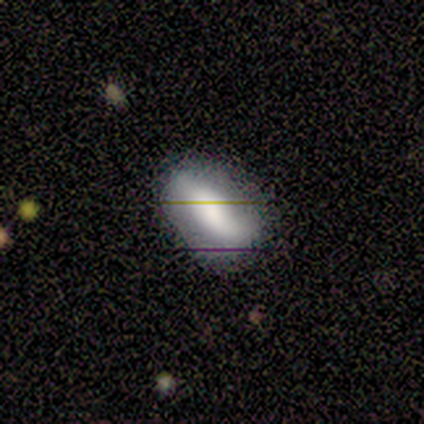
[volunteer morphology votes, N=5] A smooth galaxy with no disk features (80%) that is in between round and cigar-shaped (75%).

Vote fractions:
- Smooth or featured? smooth: 80% / featured or disk: 20% / star or artifact: 0%
- How rounded? in between: 75% / cigar-shaped: 25% / round: 0%
- Merging? none: 80% / major disturbance: 20% / minor disturbance: 0% / merger: 0%